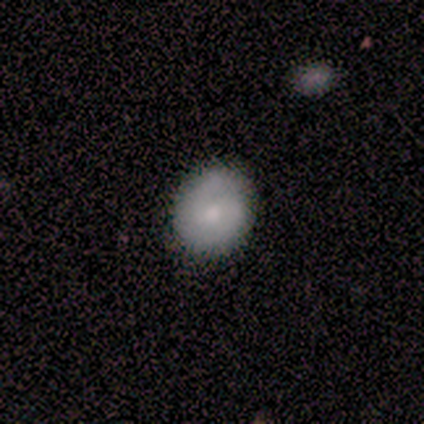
Morphology: type=smooth (80%); roundness=round (50%, tied with in between); merging=minor disturbance (60%).